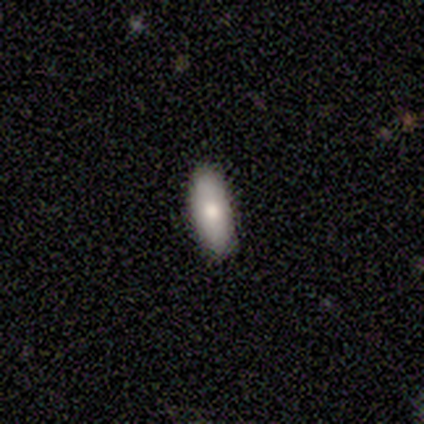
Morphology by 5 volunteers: This is likely a smooth galaxy (60%). How rounded: likely in between (67%). Merging: clearly none (80%).